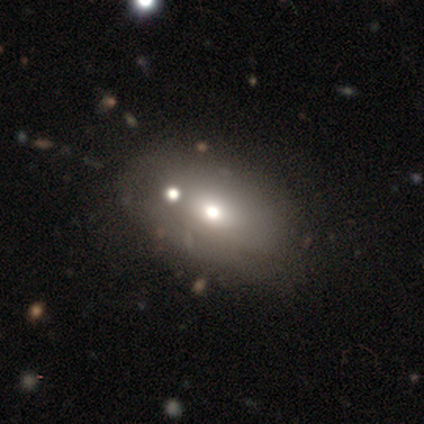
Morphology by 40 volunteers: type=smooth (62%); roundness=in between (88%); merging=none (53%).